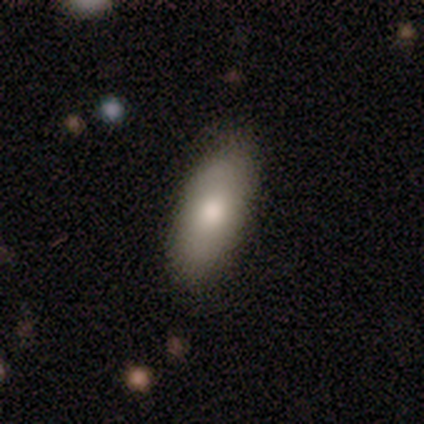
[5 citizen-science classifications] Morphology: type=smooth (60%); roundness=in between (100%); merging=none (80%).